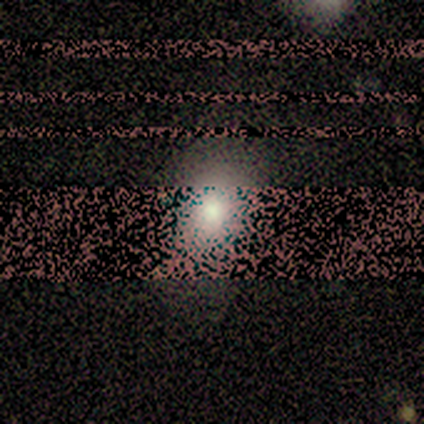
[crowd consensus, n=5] Smooth or featured?
  - smooth: 80% *
  - star or artifact: 20%
  - featured or disk: 0%
How rounded?
  - in between: 75% *
  - round: 25%
  - cigar-shaped: 0%
Merging?
  - none: 25% * (tied)
  - minor disturbance: 25% * (tied)
  - major disturbance: 25% * (tied)
  - merger: 25% * (tied)